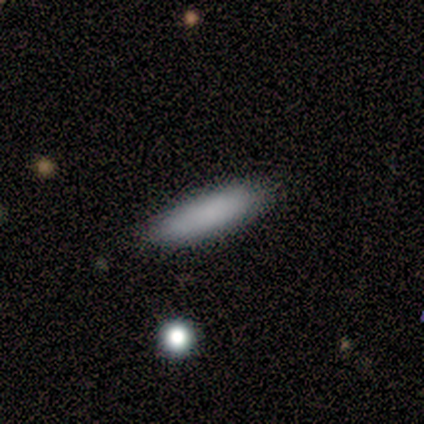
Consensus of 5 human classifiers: Smooth or featured? smooth (100%)
How rounded? cigar-shaped (100%)
Merging? none (100%)